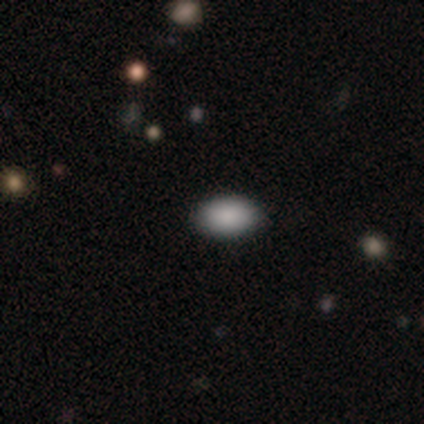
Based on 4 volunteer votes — Smooth or featured? 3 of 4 (75%) said smooth. How rounded? 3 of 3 (100%) said in between. Merging? 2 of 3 (67%) said none.